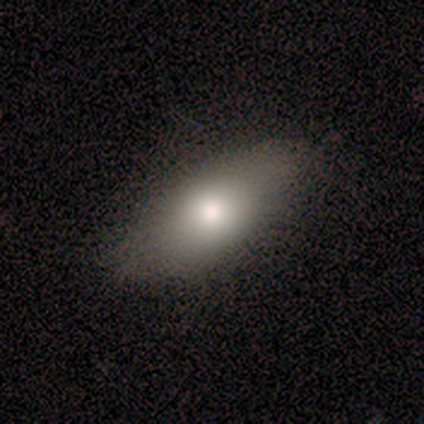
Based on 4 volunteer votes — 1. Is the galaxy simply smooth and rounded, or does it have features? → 100% smooth, 0% featured or disk, 0% star or artifact.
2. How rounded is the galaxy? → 100% in between, 0% round, 0% cigar-shaped.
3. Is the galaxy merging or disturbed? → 100% none, 0% minor disturbance, 0% major disturbance, 0% merger.